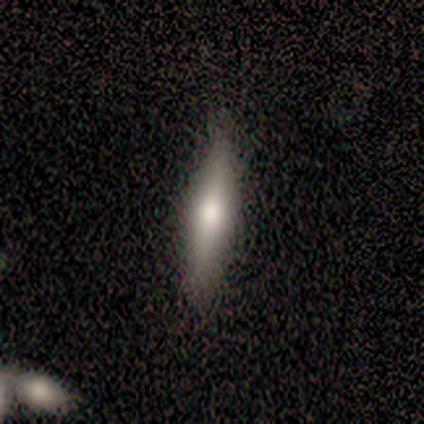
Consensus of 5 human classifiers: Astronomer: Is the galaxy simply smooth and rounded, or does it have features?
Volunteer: smooth — 60% (runner-up: featured or disk, 40%).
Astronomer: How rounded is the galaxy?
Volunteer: cigar-shaped — 100%.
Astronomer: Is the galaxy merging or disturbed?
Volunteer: none — 100%.